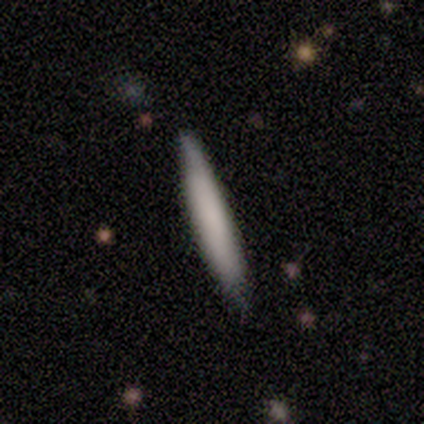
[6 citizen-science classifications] Morphology: type=smooth (83%); roundness=cigar-shaped (80%); merging=none (83%).